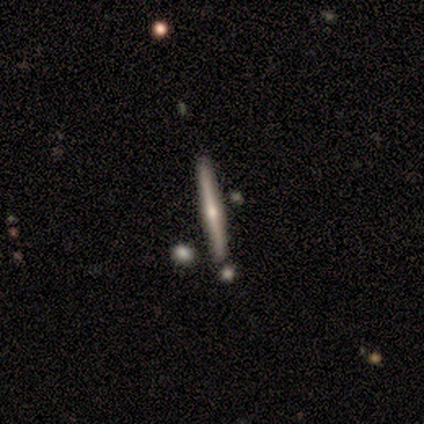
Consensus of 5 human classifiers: Overall: featured or disk (80%). Edge-on disk: yes (100%). Edge-on bulge: rounded (100%). Merging: none (100%).